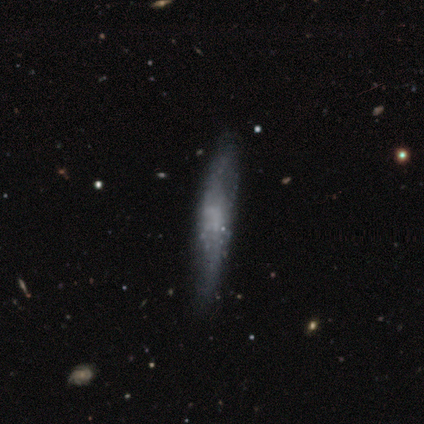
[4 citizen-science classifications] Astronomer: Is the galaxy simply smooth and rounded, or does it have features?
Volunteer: smooth — 75%.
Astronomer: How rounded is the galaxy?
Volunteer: in between — 67%.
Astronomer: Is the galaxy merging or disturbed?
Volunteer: none — 50%.